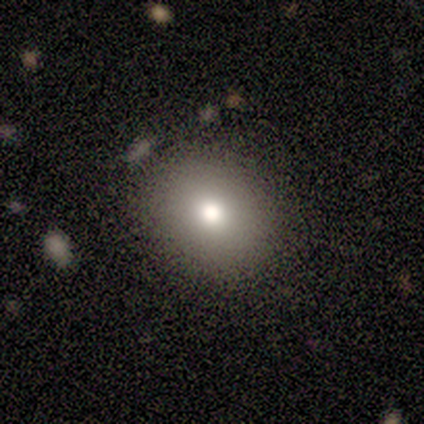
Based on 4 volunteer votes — This is clearly a smooth galaxy (100%). How rounded: clearly round (100%). Merging: likely none (75%).